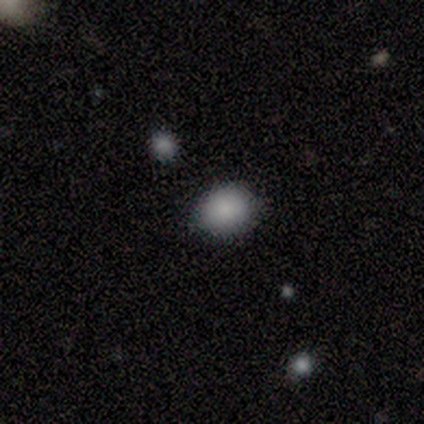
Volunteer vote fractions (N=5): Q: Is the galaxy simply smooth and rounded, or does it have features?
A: smooth — 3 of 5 (60%).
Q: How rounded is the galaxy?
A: round — 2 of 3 (67%).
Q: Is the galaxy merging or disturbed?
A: none — 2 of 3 (67%).